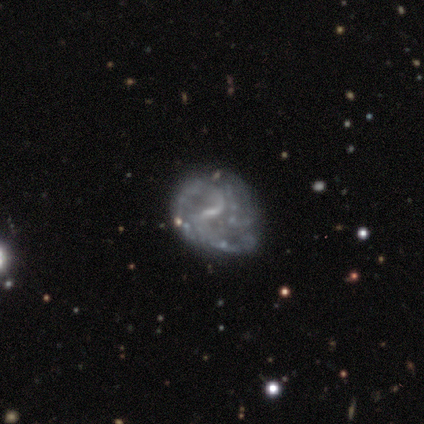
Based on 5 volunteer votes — smooth_or_featured: featured or disk (p=1.00)
disk_edge_on: no (p=1.00)
bar: weak (p=1.00)
has_spiral_arms: yes (p=0.60) [alt: no p=0.40]
spiral_winding: loose (p=0.67) [alt: medium p=0.33]
spiral_arm_count: 2 (p=0.67) [alt: can't tell p=0.33]
bulge_size: small (p=0.80) [alt: none p=0.20]
merging: none (p=0.60) [alt: minor disturbance p=0.40]